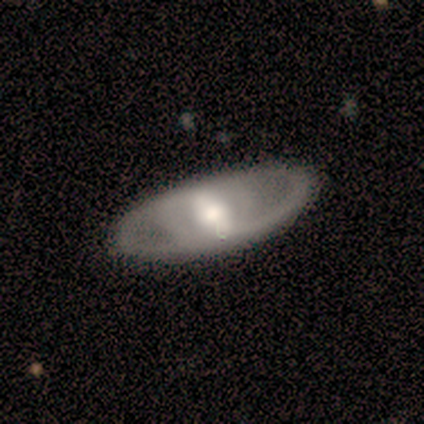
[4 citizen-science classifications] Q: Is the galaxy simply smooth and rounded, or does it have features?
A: featured or disk — 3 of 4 (75%).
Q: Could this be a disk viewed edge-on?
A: no — 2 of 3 (67%).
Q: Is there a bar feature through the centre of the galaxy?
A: strong — 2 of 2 (100%).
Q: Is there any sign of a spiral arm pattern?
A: yes — 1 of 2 (50%, tied with no).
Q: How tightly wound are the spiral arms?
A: tight — 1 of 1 (100%).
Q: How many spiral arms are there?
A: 2 — 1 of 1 (100%).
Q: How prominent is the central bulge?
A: moderate — 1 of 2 (50%, tied with small).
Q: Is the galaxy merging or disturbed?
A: none — 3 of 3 (100%).